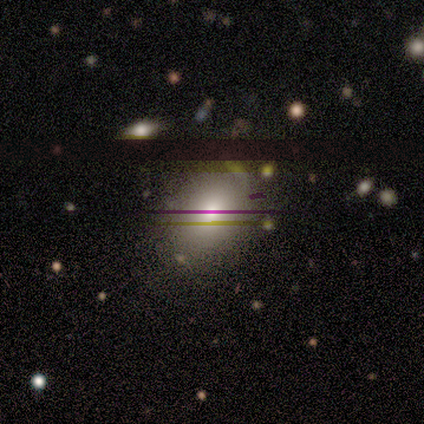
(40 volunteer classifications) Smooth or featured?
  - smooth: 57% *
  - star or artifact: 35%
  - featured or disk: 8%
How rounded?
  - in between: 83% *
  - round: 17%
  - cigar-shaped: 0%
Merging?
  - none: 88% *
  - minor disturbance: 8%
  - major disturbance: 4%
  - merger: 0%